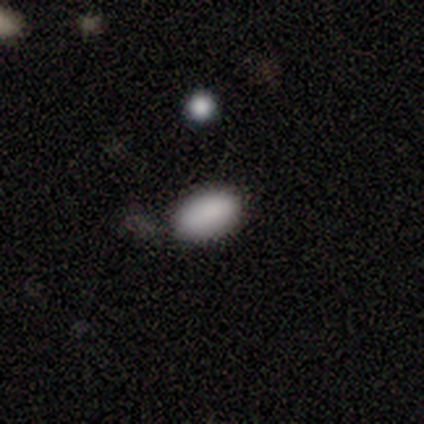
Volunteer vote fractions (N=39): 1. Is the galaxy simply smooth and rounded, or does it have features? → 82% smooth, 13% star or artifact, 5% featured or disk.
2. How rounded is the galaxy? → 97% in between, 3% round, 0% cigar-shaped.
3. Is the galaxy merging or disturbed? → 79% none, 15% minor disturbance, 6% major disturbance, 0% merger.